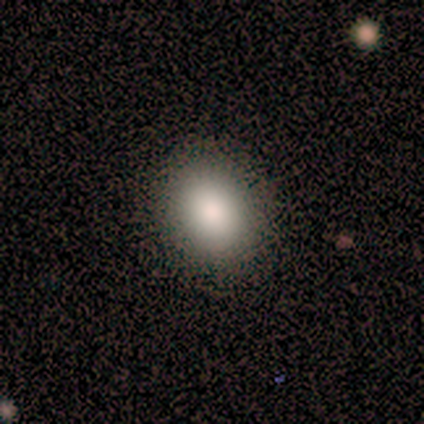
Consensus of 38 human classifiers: Smooth or featured?
  - smooth: 84% *
  - star or artifact: 16%
  - featured or disk: 0%
How rounded?
  - round: 53% *
  - in between: 47%
  - cigar-shaped: 0%
Merging?
  - none: 97% *
  - minor disturbance: 3%
  - major disturbance: 0%
  - merger: 0%